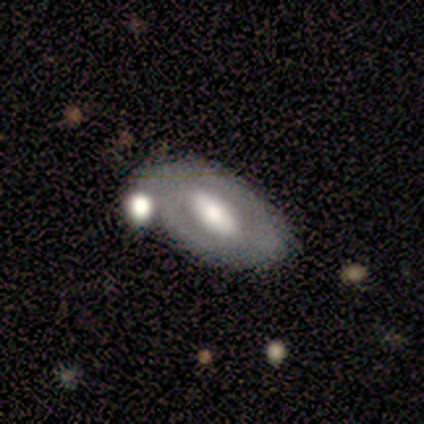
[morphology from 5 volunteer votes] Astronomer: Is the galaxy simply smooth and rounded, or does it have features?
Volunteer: featured or disk — 60%.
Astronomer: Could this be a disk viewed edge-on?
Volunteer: no — 100%.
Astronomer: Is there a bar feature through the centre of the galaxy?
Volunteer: no — 67%.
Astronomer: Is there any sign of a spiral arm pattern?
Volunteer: no — 100%.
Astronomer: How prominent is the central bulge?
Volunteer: moderate — 67%.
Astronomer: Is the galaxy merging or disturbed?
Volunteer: none — 50%.